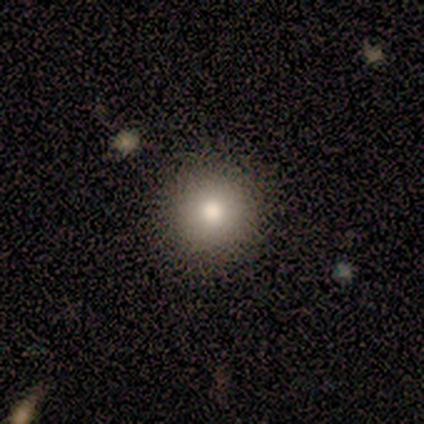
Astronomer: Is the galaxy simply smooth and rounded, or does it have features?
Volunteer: smooth — 80%.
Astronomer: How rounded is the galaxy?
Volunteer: round — 75%.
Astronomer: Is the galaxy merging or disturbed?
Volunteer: none — 100%.